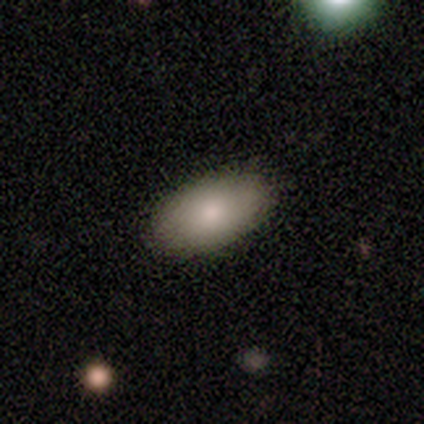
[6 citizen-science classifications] Smooth or featured? 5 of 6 (83%) said smooth. How rounded? 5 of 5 (100%) said in between. Merging? 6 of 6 (100%) said none.